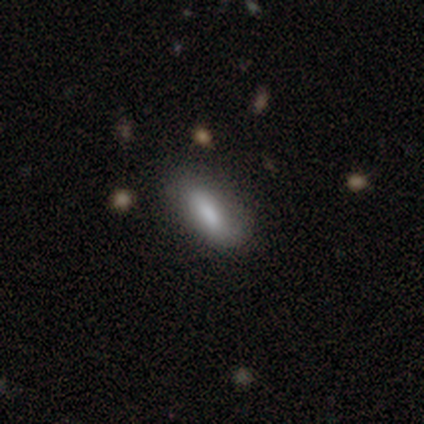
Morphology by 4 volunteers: type=smooth (75%); roundness=cigar-shaped (67%); merging=none (100%).